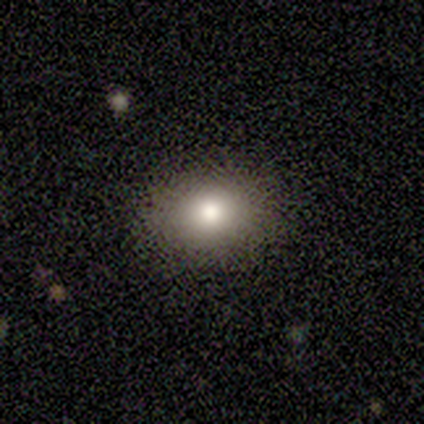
A smooth galaxy with no disk features (56%) that is in between round and cigar-shaped (100%). Merging: none (88%).